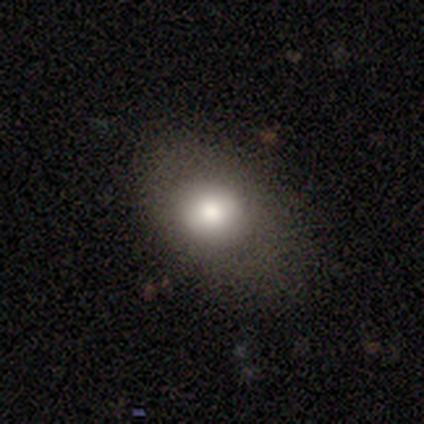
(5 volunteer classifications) Volunteers were most divided on "smooth or featured": smooth: 80%, featured or disk: 20%, star or artifact: 0%. More confident: how rounded — in between (100%); merging — none (100%).